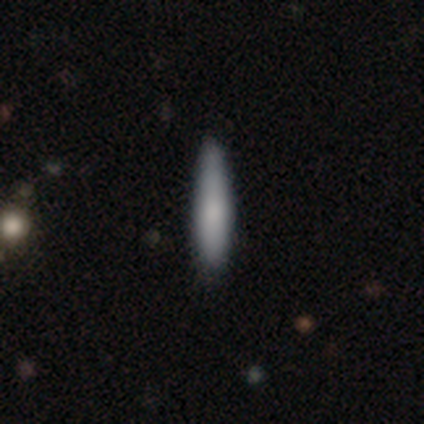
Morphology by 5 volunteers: Smooth or featured? smooth (80%)
How rounded? in between (50%, tied with cigar-shaped)
Merging? none (80%)